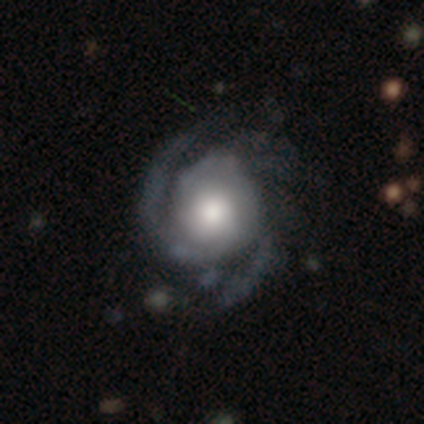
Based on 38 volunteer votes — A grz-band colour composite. It shows a featured or disk galaxy (95%) with no bar (91%), 3 (45%) tight (45%, tied with medium) spiral arms (94%) and a large central bulge (57%). Merging: none (46%).